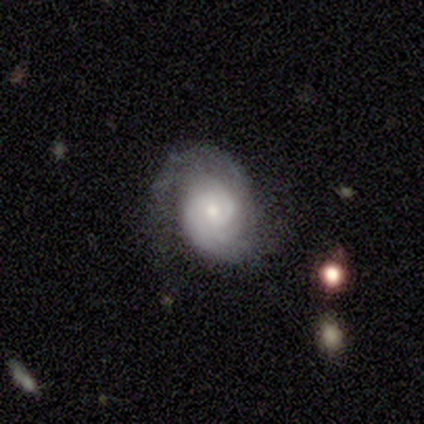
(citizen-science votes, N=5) smooth-or-featured: featured or disk: 100% | smooth: 0% | star or artifact: 0%
  disk-edge-on: no: 100% | yes: 0%
    bar: no: 60% | weak: 40% | strong: 0%
    has-spiral-arms: yes: 100% | no: 0%
      spiral-winding: medium: 60% | tight: 20% | loose: 20%
      spiral-arm-count: 2: 80% | 3: 20% | 1: 0% | 4: 0% | more than 4: 0% | can't tell: 0%
    bulge-size: moderate: 80% | small: 20% | dominant: 0% | large: 0% | none: 0%
  merging: none: 60% | minor disturbance: 20% | major disturbance: 20% | merger: 0%